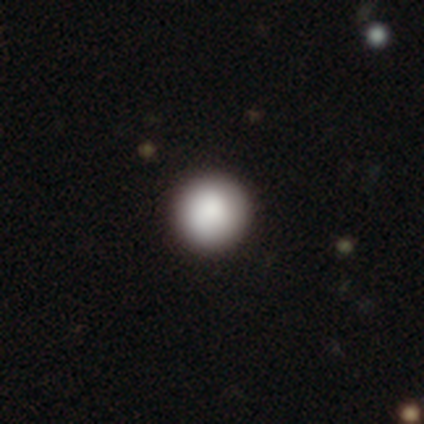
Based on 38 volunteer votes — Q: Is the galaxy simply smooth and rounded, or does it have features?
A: smooth — 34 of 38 (89%).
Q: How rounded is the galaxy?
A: round — 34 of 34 (100%).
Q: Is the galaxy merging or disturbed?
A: none — 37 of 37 (100%).